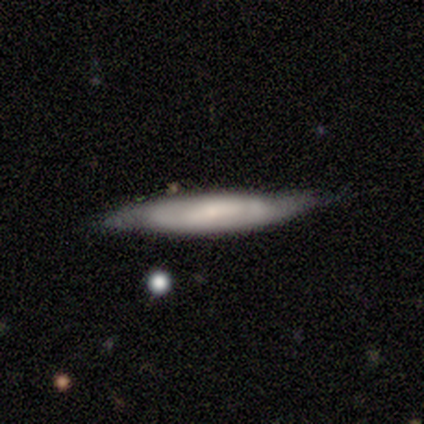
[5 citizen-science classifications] smooth_or_featured: featured or disk (p=0.60) [alt: smooth p=0.40]
disk_edge_on: no (p=0.67) [alt: yes p=0.33]
bar: weak (p=1.00)
has_spiral_arms: yes (p=0.50) [tied with: no p=0.50]
spiral_winding: tight (p=1.00)
spiral_arm_count: can't tell (p=1.00)
bulge_size: small (p=1.00)
merging: none (p=0.40) [tied with: minor disturbance p=0.40]